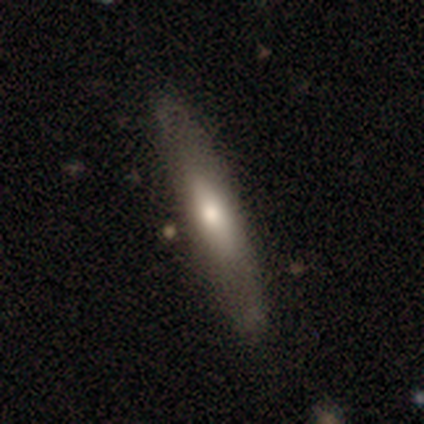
smooth_or_featured: smooth (p=0.55) [alt: featured or disk p=0.45]
how_rounded: cigar-shaped (p=0.73) [alt: in between p=0.27]
merging: none (p=0.82) [alt: minor disturbance p=0.10]